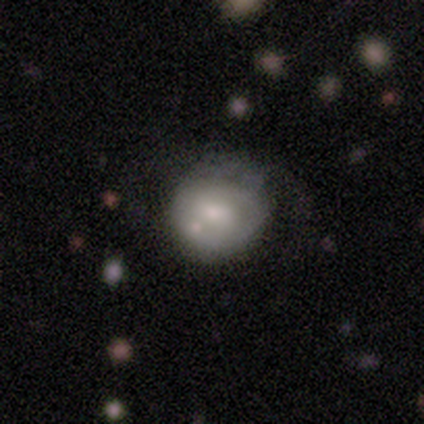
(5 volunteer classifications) This appears to be a smooth galaxy with no disk features (40%, tied with featured or disk) that is round (50%, tied with in between). Merging: none (50%).